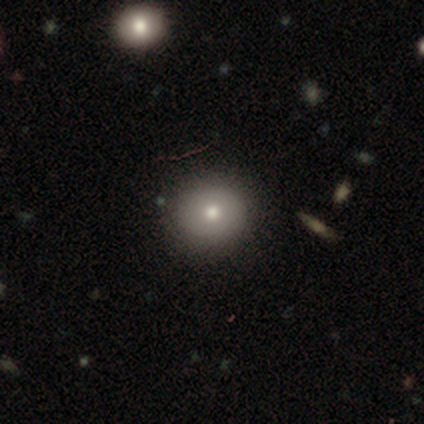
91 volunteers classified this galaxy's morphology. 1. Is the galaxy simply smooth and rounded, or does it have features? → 76% smooth, 14% star or artifact, 10% featured or disk.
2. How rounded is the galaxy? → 88% round, 12% in between, 0% cigar-shaped.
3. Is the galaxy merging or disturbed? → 91% none, 6% minor disturbance, 1% major disturbance, 1% merger.